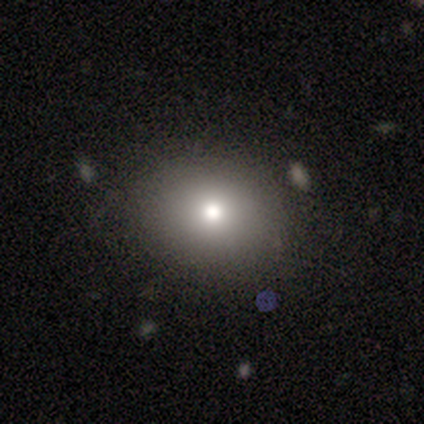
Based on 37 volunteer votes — This appears to be a smooth galaxy with no disk features (78%) that is round (59%). Merging: none (90%).